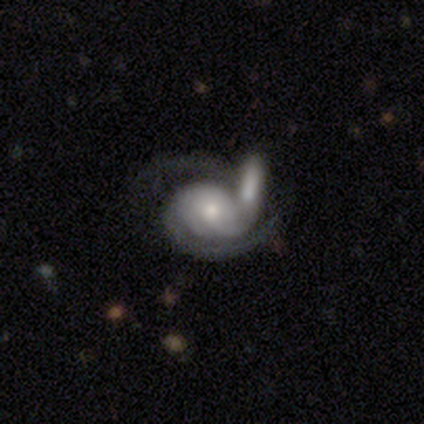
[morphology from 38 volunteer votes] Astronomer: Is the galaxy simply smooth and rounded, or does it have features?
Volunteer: featured or disk — 82%.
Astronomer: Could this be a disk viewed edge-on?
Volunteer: no — 100%.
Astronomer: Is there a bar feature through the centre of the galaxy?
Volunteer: no — 74%.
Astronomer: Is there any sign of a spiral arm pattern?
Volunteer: yes — 97%.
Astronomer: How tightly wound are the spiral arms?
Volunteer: tight — 50% (runner-up: medium, 27%).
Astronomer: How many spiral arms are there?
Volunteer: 2 — 67%.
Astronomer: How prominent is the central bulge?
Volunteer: moderate — 55% (runner-up: small, 32%).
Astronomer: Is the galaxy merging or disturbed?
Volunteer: merger — 60%.